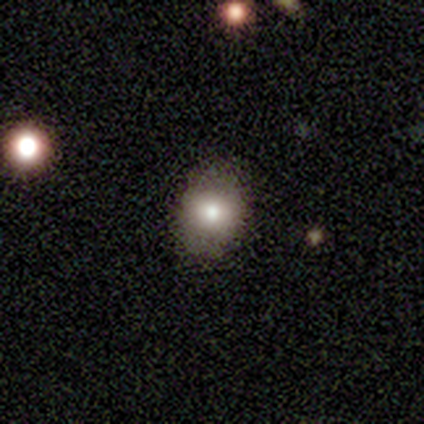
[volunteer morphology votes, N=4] Overall: star or artifact (75%).